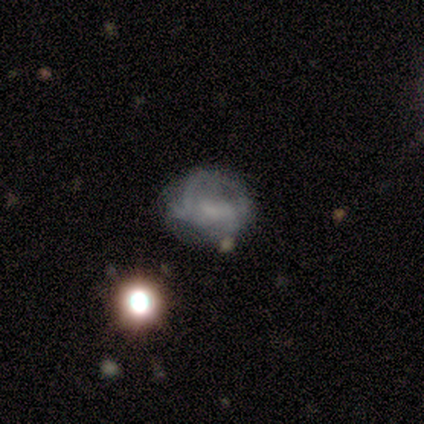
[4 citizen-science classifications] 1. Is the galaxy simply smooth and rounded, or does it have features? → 50% smooth, 25% featured or disk, 25% star or artifact.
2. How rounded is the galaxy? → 100% in between, 0% round, 0% cigar-shaped.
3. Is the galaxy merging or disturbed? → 33% none (tied), 33% minor disturbance (tied), 33% major disturbance (tied), 0% merger.